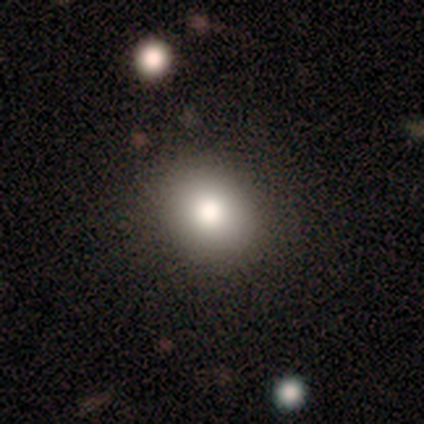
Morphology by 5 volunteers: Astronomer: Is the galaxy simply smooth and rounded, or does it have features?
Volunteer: smooth — 100%.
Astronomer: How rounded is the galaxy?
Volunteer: in between — 80%.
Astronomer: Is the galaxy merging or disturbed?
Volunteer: none — 100%.